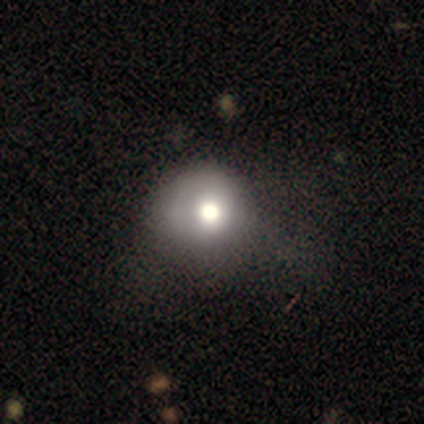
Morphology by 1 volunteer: type=smooth (100%); roundness=round (100%); merging=minor disturbance (100%).